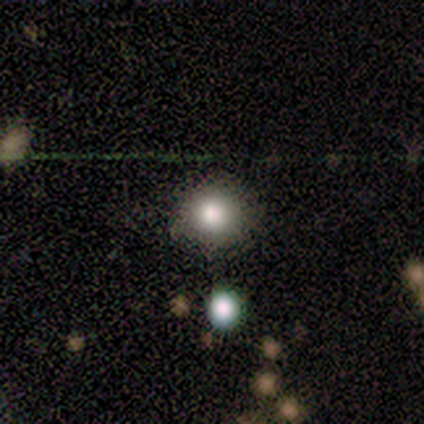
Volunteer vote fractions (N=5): smooth 80%, star or artifact 20%, featured or disk 0%. Down the decision tree: how rounded — round (100%); merging — none (100%).